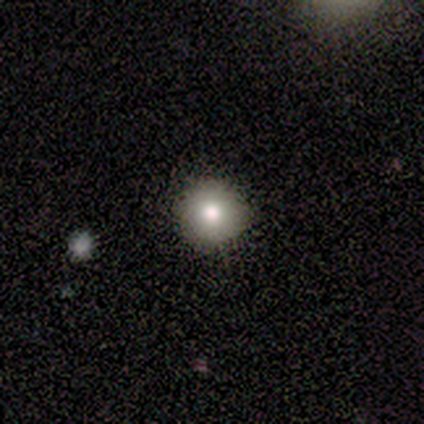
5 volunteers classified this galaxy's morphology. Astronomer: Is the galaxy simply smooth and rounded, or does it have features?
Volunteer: smooth — 100%.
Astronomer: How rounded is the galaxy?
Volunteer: round — 100%.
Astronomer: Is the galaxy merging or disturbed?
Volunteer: none — 100%.